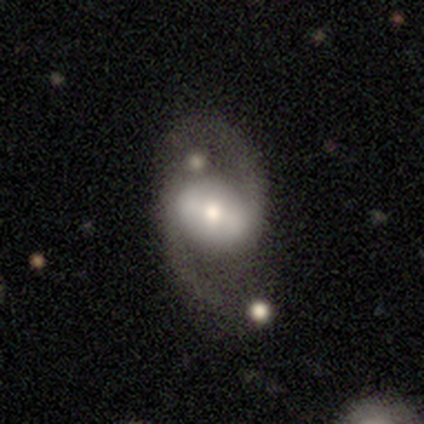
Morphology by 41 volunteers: type=featured or disk (93%); edge-on=no (100%); bar=strong (50%); spiral arms=yes (95%); winding=loose (64%); arm count=2 (97%); bulge=moderate (50%); merging=none (65%).